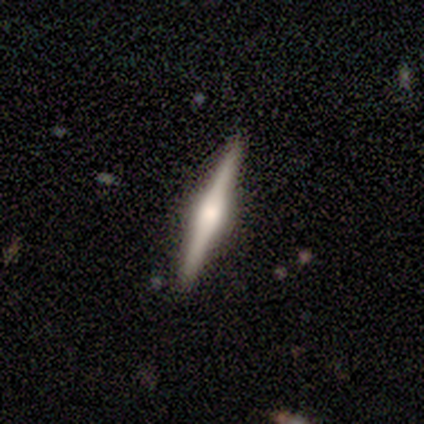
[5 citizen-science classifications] Volunteers were most divided on "smooth or featured": featured or disk: 60%, smooth: 40%, star or artifact: 0%. More confident: edge-on disk — yes (100%); edge-on bulge — rounded (100%); merging — none (100%).